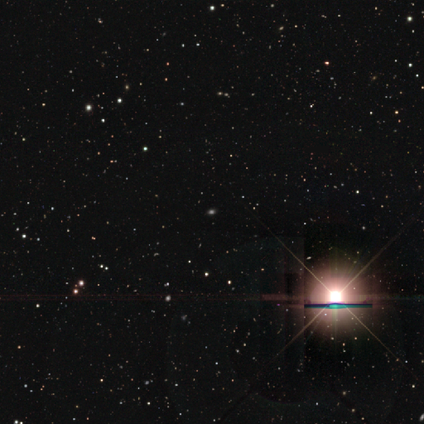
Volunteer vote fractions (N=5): Q: Smooth or featured?
A: smooth (60%); runner-up: star or artifact (40%)
Q: How rounded?
A: in between (67%); runner-up: round (33%)
Q: Merging?
A: none (100%)